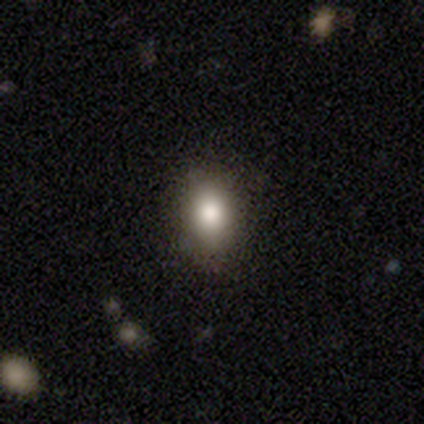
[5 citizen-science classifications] This is clearly a smooth galaxy (100%). How rounded: clearly in between (80%). Merging: clearly none (80%).